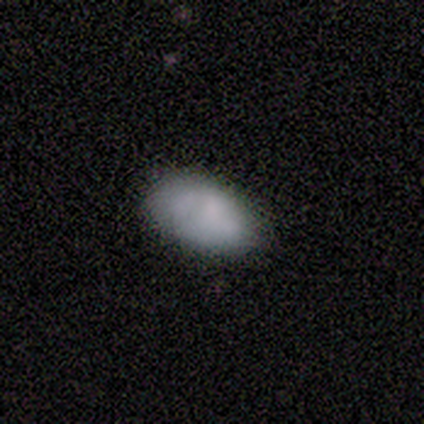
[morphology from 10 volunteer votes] Smooth or featured? smooth (90%)
How rounded? in between (100%)
Merging? none (80%)